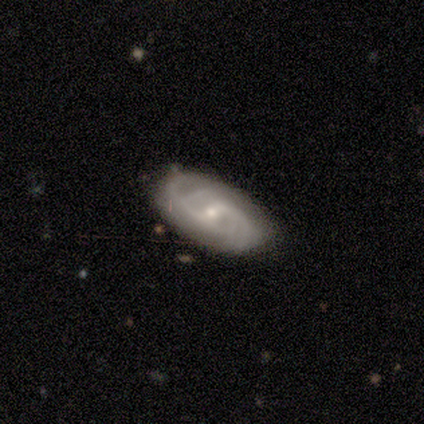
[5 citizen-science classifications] Smooth or featured: featured or disk — 100%
Edge-on disk: no — 100%
Bar: weak — 100%
Spiral arms: yes — 100%
Spiral winding: medium — 60% (tight — 20%)
Spiral arm count: 2 — 40% (tied with 4 — 40%)
Bulge size: small — 80% (moderate — 20%)
Merging: none — 60% (minor disturbance — 40%)